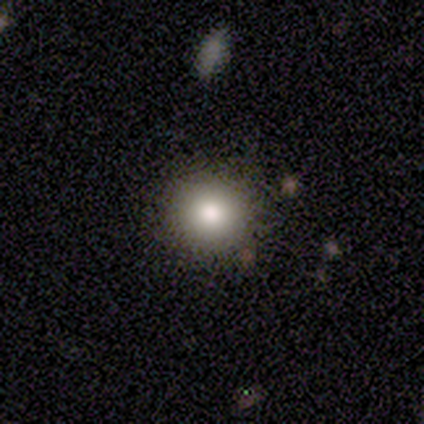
Smooth or featured?
  - smooth: 100% *
  - featured or disk: 0%
  - star or artifact: 0%
How rounded?
  - round: 100% *
  - in between: 0%
  - cigar-shaped: 0%
Merging?
  - none: 100% *
  - minor disturbance: 0%
  - major disturbance: 0%
  - merger: 0%